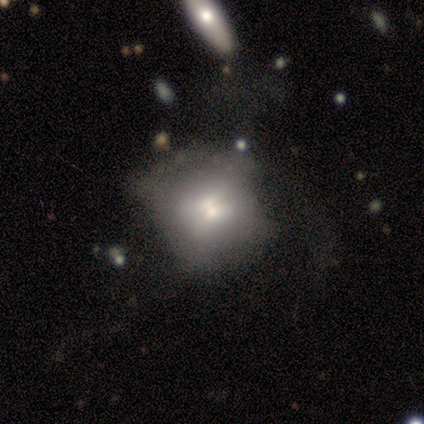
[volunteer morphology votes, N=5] Volunteers were most divided on "merging": none: 60%, minor disturbance: 40%, major disturbance: 0%, merger: 0%. More confident: how rounded — round (100%); smooth or featured — smooth (80%).